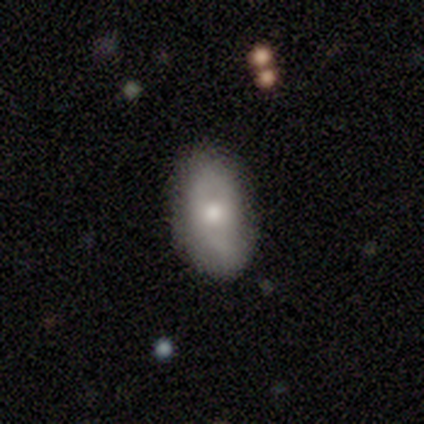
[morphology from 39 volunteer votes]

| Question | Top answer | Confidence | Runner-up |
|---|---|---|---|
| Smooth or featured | smooth | 59% | featured or disk (28%) |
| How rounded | in between | 96% | round (4%) |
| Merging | none | 82% | minor disturbance (12%) |